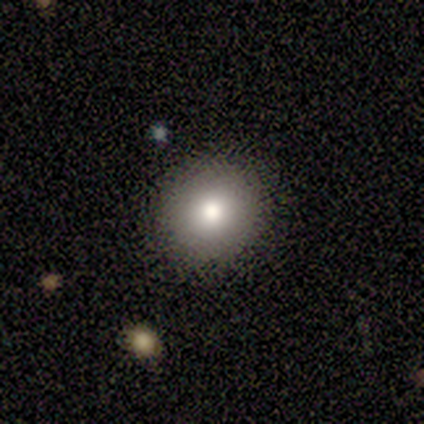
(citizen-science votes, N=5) Overall: star or artifact (60%; featured or disk 40%).